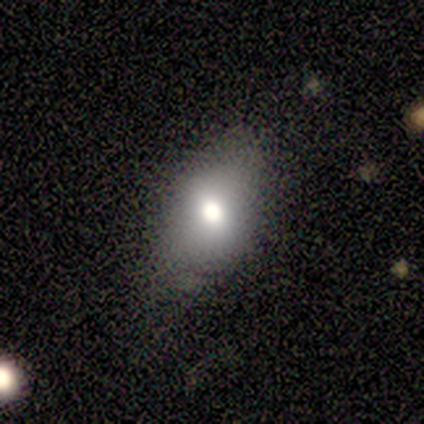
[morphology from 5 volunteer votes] Q: Smooth or featured?
A: smooth (60%); runner-up: star or artifact (40%)
Q: How rounded?
A: in between (67%); runner-up: round (33%)
Q: Merging?
A: none (100%)